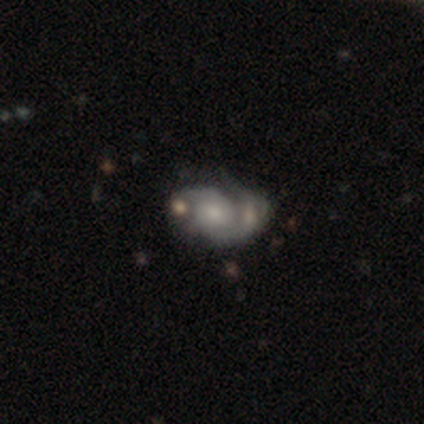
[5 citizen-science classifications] A featured or disk galaxy (100%) with no bar (75%), 2 (100%) medium (75%) spiral arms (100%) and a moderate central bulge (50%, tied with small). Merging: none (40%, tied with merger).